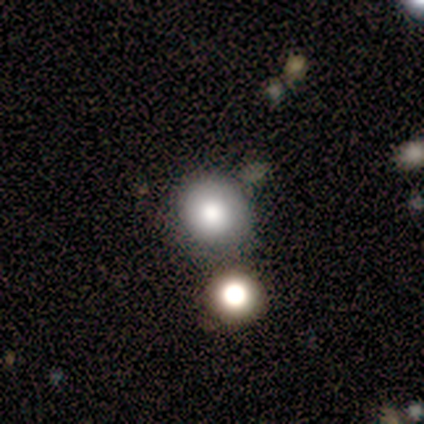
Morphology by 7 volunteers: smooth-or-featured: smooth: 71% | star or artifact: 29% | featured or disk: 0%
  how-rounded: round: 100% | in between: 0% | cigar-shaped: 0%
  merging: none: 80% | minor disturbance: 20% | major disturbance: 0% | merger: 0%